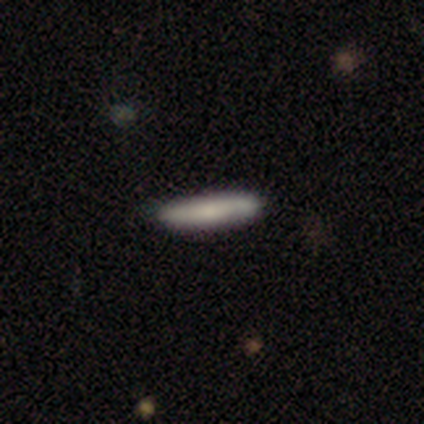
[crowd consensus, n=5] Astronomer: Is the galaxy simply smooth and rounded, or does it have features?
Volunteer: smooth — 100%.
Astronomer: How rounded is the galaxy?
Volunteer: cigar-shaped — 100%.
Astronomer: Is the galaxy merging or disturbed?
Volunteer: none — 80%.